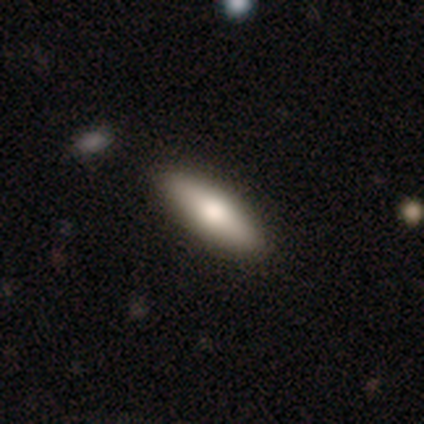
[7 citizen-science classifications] Smooth or featured? featured or disk (57%)
Edge-on disk? yes (75%)
Edge-on bulge? rounded (100%)
Merging? none (83%)